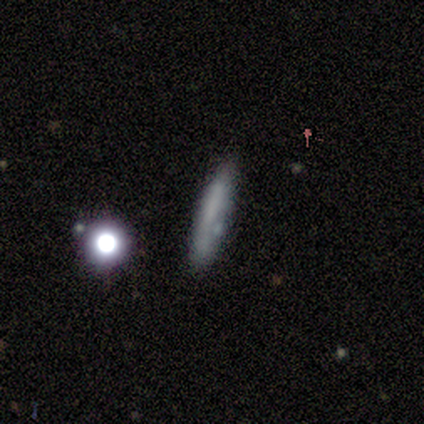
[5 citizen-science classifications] smooth-or-featured: smooth: 80% | star or artifact: 20% | featured or disk: 0%
  how-rounded: cigar-shaped: 75% | in between: 25% | round: 0%
  merging: none: 50% | minor disturbance: 25% | merger: 25% | major disturbance: 0%